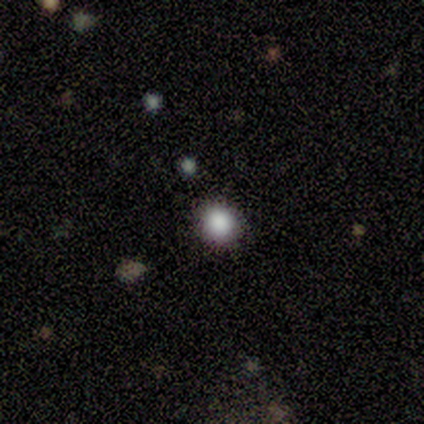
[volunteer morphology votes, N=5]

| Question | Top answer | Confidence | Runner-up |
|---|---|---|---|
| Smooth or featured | smooth | 60% | star or artifact (40%) |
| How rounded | round | 67% | in between (33%) |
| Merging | none | 100% | — |